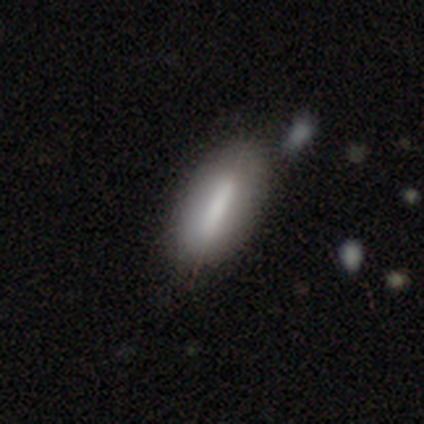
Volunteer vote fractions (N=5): Q: Smooth or featured?
A: smooth (60%); runner-up: featured or disk (40%)
Q: How rounded?
A: round (33%); tied with: in between (33%); cigar-shaped (33%)
Q: Merging?
A: none (60%); runner-up: minor disturbance (20%)